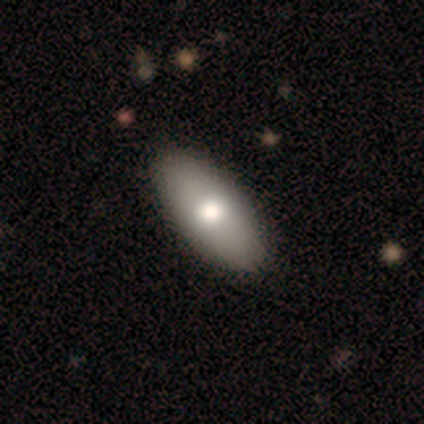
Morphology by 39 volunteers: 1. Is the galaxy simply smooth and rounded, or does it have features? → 72% smooth, 28% featured or disk, 0% star or artifact.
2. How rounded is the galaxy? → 86% in between, 11% cigar-shaped, 4% round.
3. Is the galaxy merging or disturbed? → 56% none, 8% minor disturbance, 3% major disturbance, 0% merger.